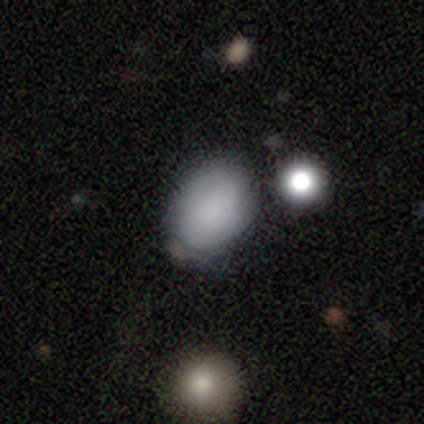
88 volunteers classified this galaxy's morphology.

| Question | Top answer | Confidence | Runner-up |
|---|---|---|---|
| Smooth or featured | smooth | 81% | star or artifact (10%) |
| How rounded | in between | 76% | round (23%) |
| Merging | none | 59% | minor disturbance (28%) |